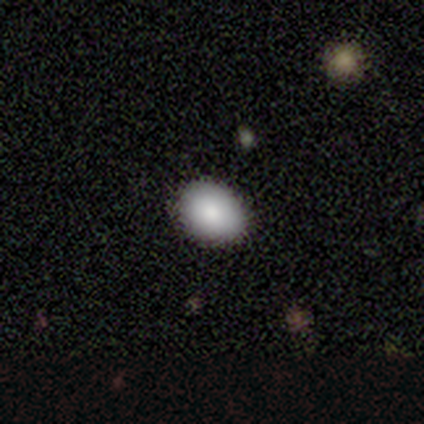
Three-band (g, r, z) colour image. It shows a smooth galaxy with no disk features (79%) that is in between round and cigar-shaped (65%). Merging: none (88%).